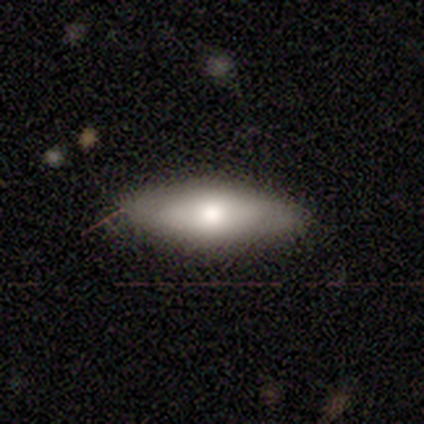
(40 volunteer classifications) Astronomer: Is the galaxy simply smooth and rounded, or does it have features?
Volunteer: smooth — 68%.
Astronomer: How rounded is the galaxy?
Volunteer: in between — 78%.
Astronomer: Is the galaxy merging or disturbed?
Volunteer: none — 87%.